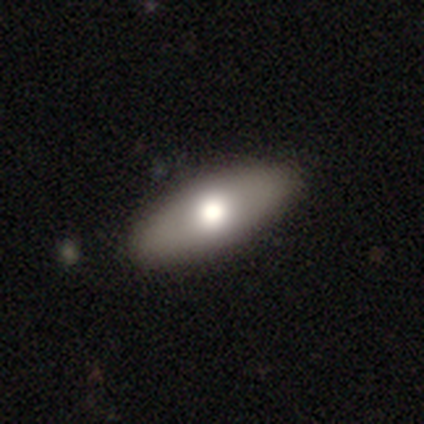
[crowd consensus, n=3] Overall: featured or disk (67%; smooth 33%). Edge-on disk: no (100%). Bar: no (100%). Spiral arms: no (100%). Bulge size: large (50%, tied with moderate). Merging: none (100%).